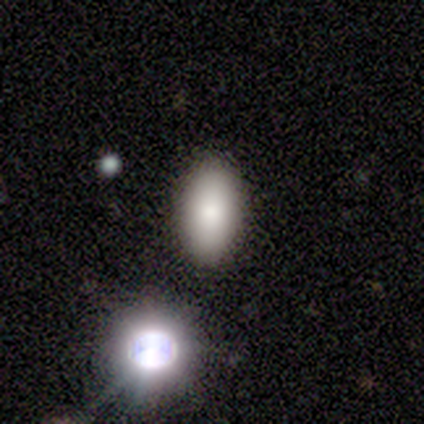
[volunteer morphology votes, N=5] This appears to be a smooth galaxy with no disk features (100%) that is in between round and cigar-shaped (100%). Merging: none (100%).